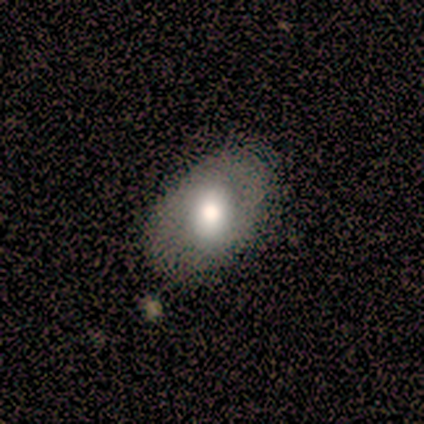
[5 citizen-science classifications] smooth-or-featured: smooth: 60% | featured or disk: 40% | star or artifact: 0%
  how-rounded: in between: 100% | round: 0% | cigar-shaped: 0%
  merging: none: 100% | minor disturbance: 0% | major disturbance: 0% | merger: 0%